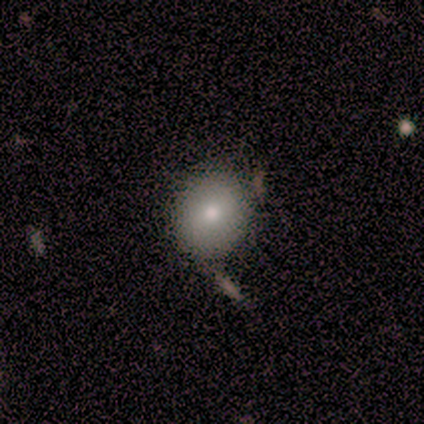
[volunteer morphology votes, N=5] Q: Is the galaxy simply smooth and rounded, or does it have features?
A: smooth — 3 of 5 (60%).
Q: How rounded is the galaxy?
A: round — 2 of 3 (67%).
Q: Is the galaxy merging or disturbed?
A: none — 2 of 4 (50%, tied with minor disturbance).